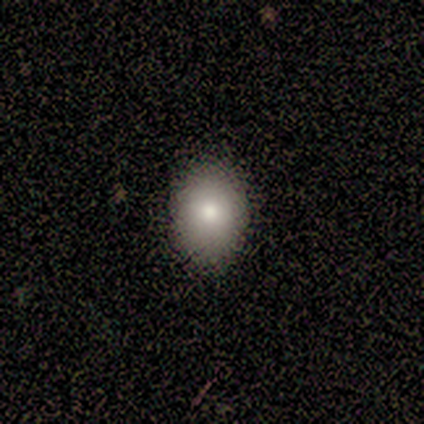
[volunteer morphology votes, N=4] A smooth galaxy with no disk features (100%) that is in between round and cigar-shaped (75%).

Vote fractions:
- Smooth or featured? smooth: 100% / featured or disk: 0% / star or artifact: 0%
- How rounded? in between: 75% / round: 25% / cigar-shaped: 0%
- Merging? none: 100% / minor disturbance: 0% / major disturbance: 0% / merger: 0%